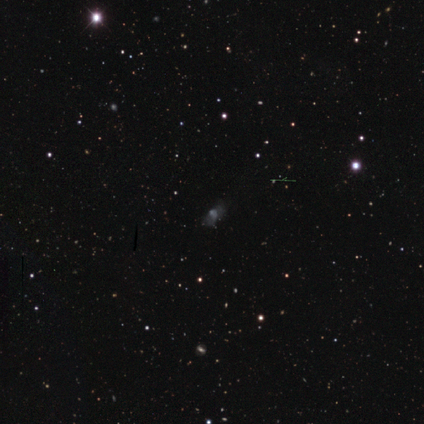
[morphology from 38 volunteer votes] Q: Smooth or featured?
A: star or artifact (45%); runner-up: smooth (32%)